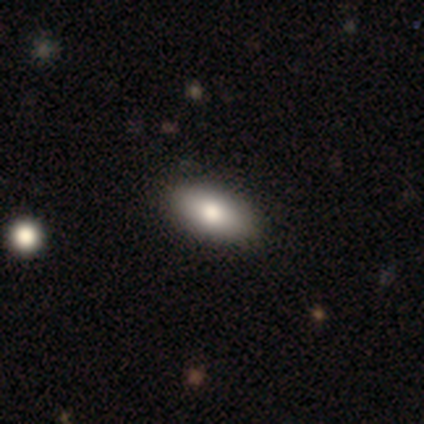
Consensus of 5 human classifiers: Smooth or featured: smooth — 40% (tied with featured or disk — 40%)
How rounded: in between — 100%
Merging: none — 100%